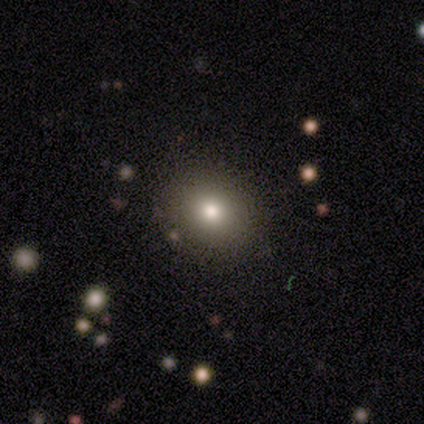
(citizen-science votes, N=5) A smooth galaxy with no disk features (80%) that is round (100%). Merging: none (75%).